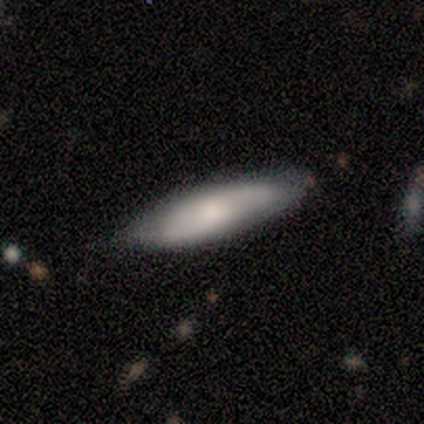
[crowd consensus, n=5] Smooth or featured? smooth (80%)
How rounded? in between (50%, tied with cigar-shaped)
Merging? none (60%)